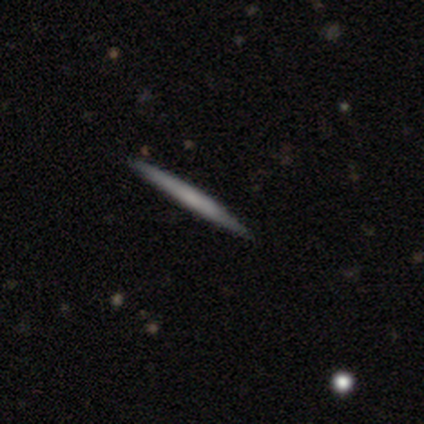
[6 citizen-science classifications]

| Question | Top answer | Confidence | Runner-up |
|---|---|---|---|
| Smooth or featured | smooth | 50% | tied: featured or disk (50%) |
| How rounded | cigar-shaped | 100% | — |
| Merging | none | 100% | — |